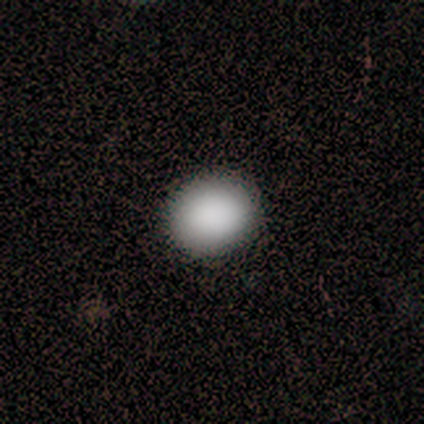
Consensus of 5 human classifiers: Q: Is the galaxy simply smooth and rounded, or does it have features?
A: smooth — 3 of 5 (60%).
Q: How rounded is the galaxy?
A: round — 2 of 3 (67%).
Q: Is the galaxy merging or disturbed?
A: none — 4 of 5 (80%).